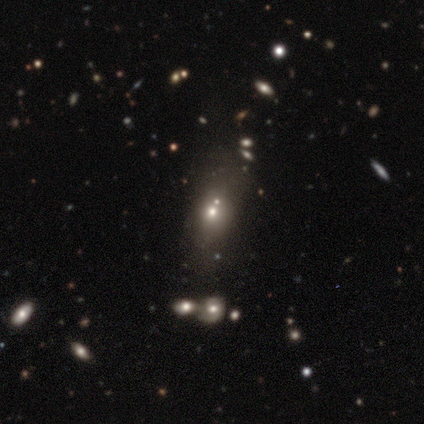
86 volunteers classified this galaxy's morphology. Overall: smooth (48%; star or artifact 28%). How rounded: in between (59%; round 32%). Merging: none (60%; merger 24%).